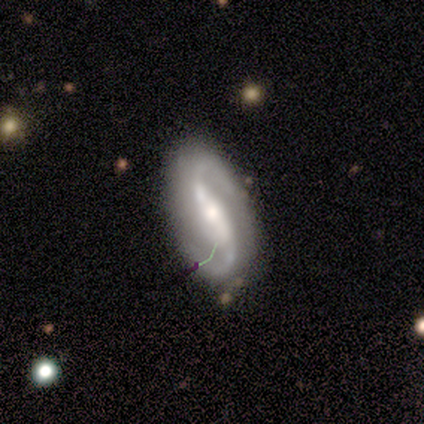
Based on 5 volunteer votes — A featured or disk galaxy (100%) with a strong bar (60%), 2 (100%) medium (40%, tied with loose) spiral arms (100%) and a moderate central bulge (60%).

Vote fractions:
- Smooth or featured? featured or disk: 100% / smooth: 0% / star or artifact: 0%
- Edge-on disk? no: 100% / yes: 0%
- Bar? strong: 60% / weak: 20% / no: 20%
- Spiral arms? yes: 100% / no: 0%
- Spiral winding? medium: 40% (tied) / loose: 40% (tied) / tight: 20%
- Spiral arm count? 2: 100% / 1: 0% / 3: 0% / 4: 0% / more than 4: 0% / can't tell: 0%
- Bulge size? moderate: 60% / large: 20% / none: 20% / dominant: 0% / small: 0%
- Merging? none: 80% / minor disturbance: 20% / major disturbance: 0% / merger: 0%